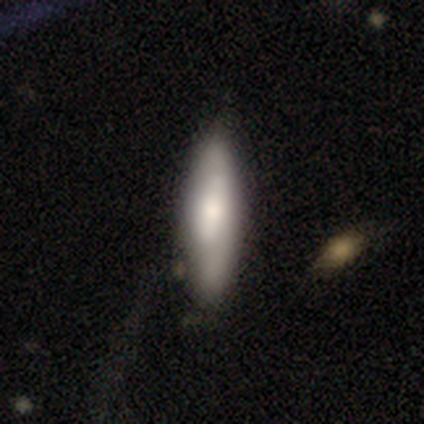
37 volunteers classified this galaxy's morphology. Smooth or featured?
  - smooth: 68% *
  - featured or disk: 24%
  - star or artifact: 8%
How rounded?
  - cigar-shaped: 80% *
  - in between: 20%
  - round: 0%
Merging?
  - none: 82% *
  - minor disturbance: 9%
  - merger: 6%
  - major disturbance: 3%